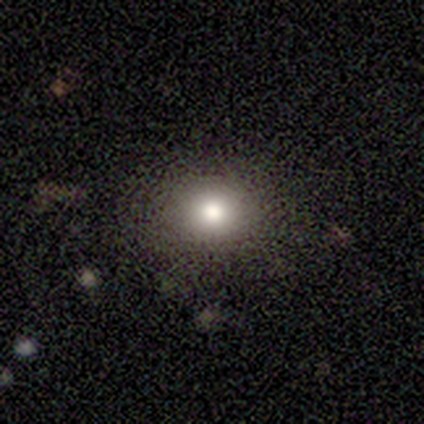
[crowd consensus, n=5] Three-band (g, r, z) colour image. It shows a smooth galaxy with no disk features (60%) that is round (67%). Merging: none (100%).